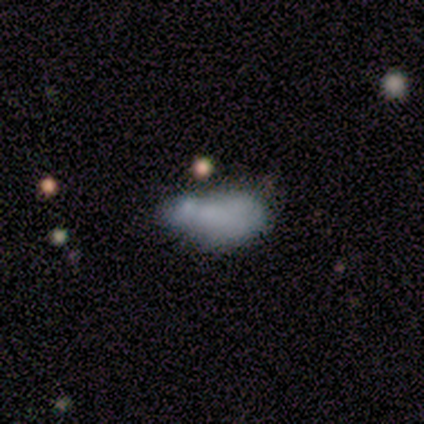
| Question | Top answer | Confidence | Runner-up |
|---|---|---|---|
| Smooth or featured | smooth | 80% | featured or disk (20%) |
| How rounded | in between | 100% | — |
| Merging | minor disturbance | 60% | major disturbance (20%) |